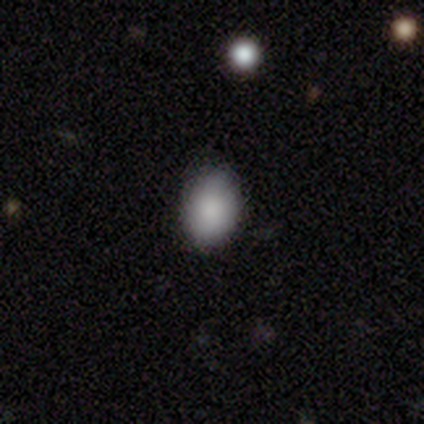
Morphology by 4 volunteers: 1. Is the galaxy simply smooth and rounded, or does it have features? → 100% smooth, 0% featured or disk, 0% star or artifact.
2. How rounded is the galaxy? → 75% in between, 25% round, 0% cigar-shaped.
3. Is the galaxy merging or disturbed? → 100% none, 0% minor disturbance, 0% major disturbance, 0% merger.